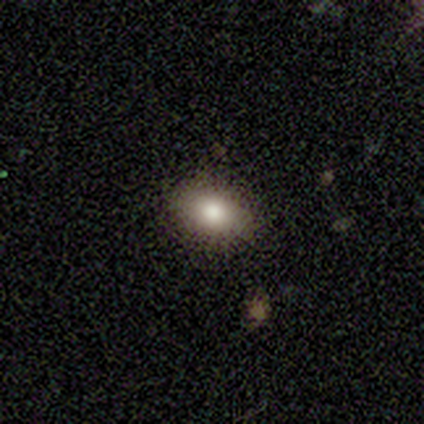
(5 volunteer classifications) Smooth or featured: smooth — 80% (featured or disk — 20%)
How rounded: in between — 75% (round — 25%)
Merging: none — 40% (tied with minor disturbance — 40%)